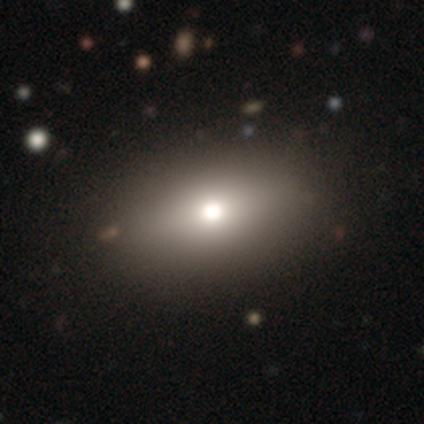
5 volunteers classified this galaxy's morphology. This appears to be a smooth galaxy with no disk features (60%) that is in between round and cigar-shaped (67%). Merging: none (80%).